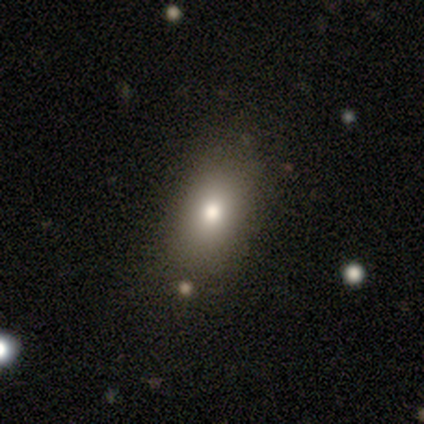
smooth_or_featured: smooth (p=0.75) [alt: star or artifact p=0.25]
how_rounded: round (p=0.67) [alt: in between p=0.33]
merging: none (p=0.67) [alt: merger p=0.33]